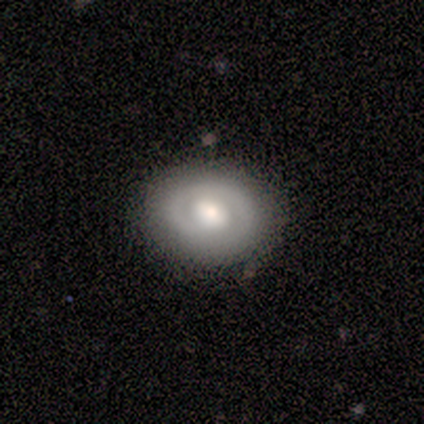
smooth-or-featured: featured or disk: 100% | smooth: 0% | star or artifact: 0%
  disk-edge-on: no: 100% | yes: 0%
    bar: weak: 75% | no: 25% | strong: 0%
    has-spiral-arms: no: 100% | yes: 0%
    bulge-size: large: 50% (tied) | moderate: 50% (tied) | dominant: 0% | small: 0% | none: 0%
  merging: none: 75% | major disturbance: 25% | minor disturbance: 0% | merger: 0%